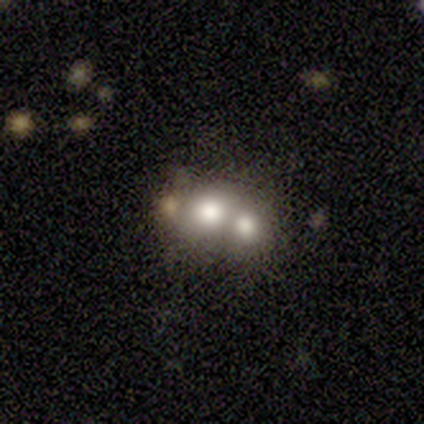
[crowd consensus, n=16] smooth 56%, featured or disk 31%, star or artifact 12%. Down the decision tree: how rounded — round (67%); merging — merger (71%).